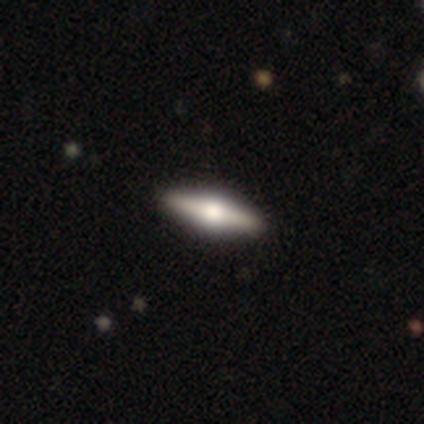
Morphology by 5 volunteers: This appears to be a featured or disk galaxy (60%) viewed edge-on (100%) with a rounded central bulge (100%). Merging: none (100%).